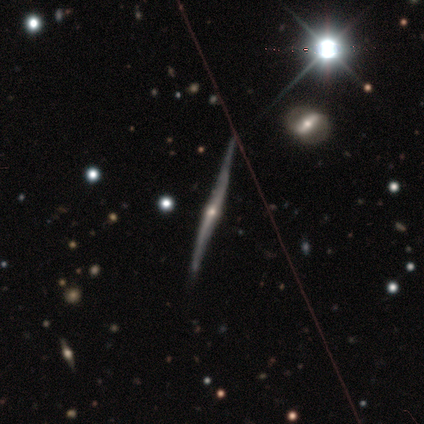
A featured or disk galaxy (100%) viewed edge-on (100%) with a rounded central bulge (75%).

Vote fractions:
- Smooth or featured? featured or disk: 100% / smooth: 0% / star or artifact: 0%
- Edge-on disk? yes: 100% / no: 0%
- Edge-on bulge? rounded: 75% / none: 25% / boxy: 0%
- Merging? none: 75% / minor disturbance: 25% / major disturbance: 0% / merger: 0%